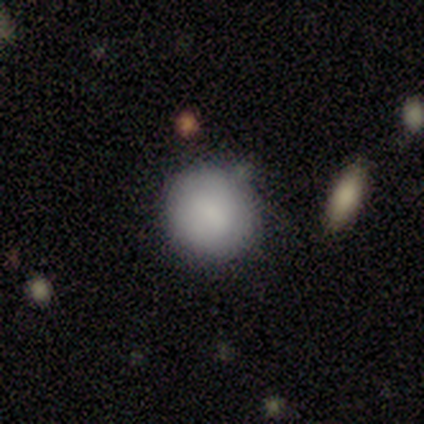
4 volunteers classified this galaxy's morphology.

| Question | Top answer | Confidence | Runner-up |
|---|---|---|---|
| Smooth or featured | smooth | 50% | tied: featured or disk (50%) |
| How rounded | round | 50% | tied: in between (50%) |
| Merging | none | 100% | — |